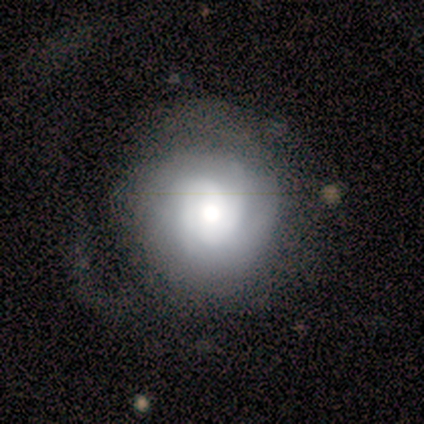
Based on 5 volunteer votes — Smooth or featured?
  - featured or disk: 60% *
  - smooth: 40%
  - star or artifact: 0%
Edge-on disk?
  - no: 100% *
  - yes: 0%
Bar?
  - no: 100% *
  - strong: 0%
  - weak: 0%
Spiral arms?
  - yes: 100% *
  - no: 0%
Spiral winding?
  - tight: 67% *
  - medium: 33%
  - loose: 0%
Spiral arm count?
  - 3: 33% * (tied)
  - 4: 33% * (tied)
  - can't tell: 33% * (tied)
  - 1: 0%
  - 2: 0%
  - more than 4: 0%
Bulge size?
  - moderate: 67% *
  - large: 33%
  - dominant: 0%
  - small: 0%
  - none: 0%
Merging?
  - none: 60% *
  - minor disturbance: 20%
  - major disturbance: 20%
  - merger: 0%